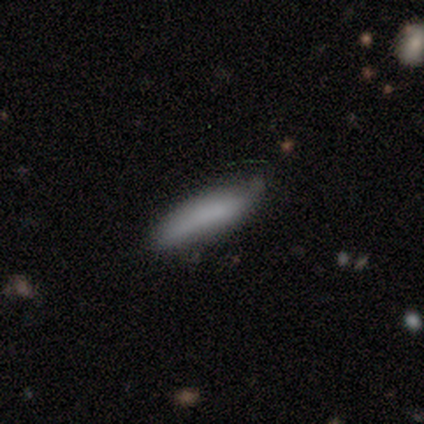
smooth-or-featured: smooth: 100% | featured or disk: 0% | star or artifact: 0%
  how-rounded: cigar-shaped: 100% | round: 0% | in between: 0%
  merging: none: 80% | minor disturbance: 20% | major disturbance: 0% | merger: 0%